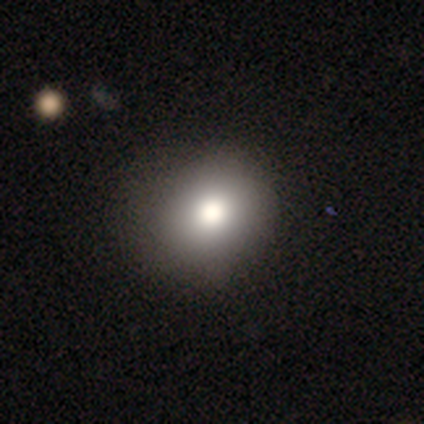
smooth_or_featured: smooth (p=0.71) [alt: star or artifact p=0.21]
how_rounded: round (p=0.71) [alt: in between p=0.29]
merging: none (p=0.75) [alt: minor disturbance p=0.22]